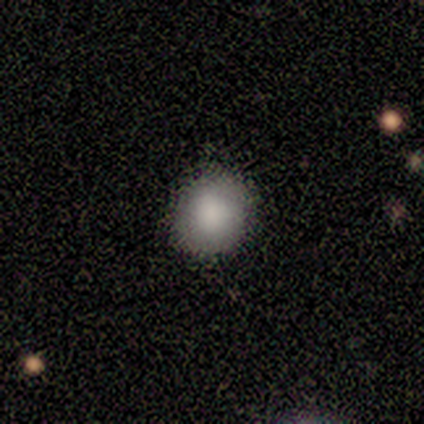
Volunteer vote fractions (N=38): Smooth or featured: smooth — 97% (featured or disk — 3%)
How rounded: round — 81% (in between — 16%)
Merging: none — 92% (minor disturbance — 5%)